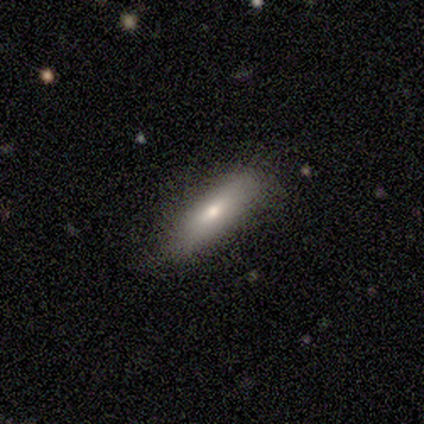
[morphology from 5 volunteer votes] Volunteers were most divided on "how rounded": cigar-shaped: 60%, in between: 40%, round: 0%. More confident: smooth or featured — smooth (100%); merging — none (100%).